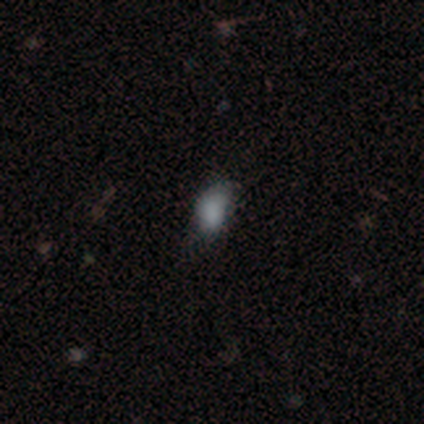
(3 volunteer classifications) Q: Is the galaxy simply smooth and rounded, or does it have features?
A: smooth — 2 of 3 (67%).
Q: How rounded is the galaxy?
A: in between — 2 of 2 (100%).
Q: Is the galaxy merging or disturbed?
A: minor disturbance — 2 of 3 (67%).